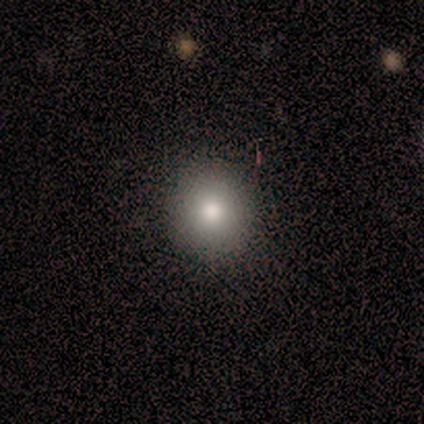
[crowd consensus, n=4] Smooth or featured? 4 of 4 (100%) said smooth. How rounded? 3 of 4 (75%) said round. Merging? 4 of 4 (100%) said none.